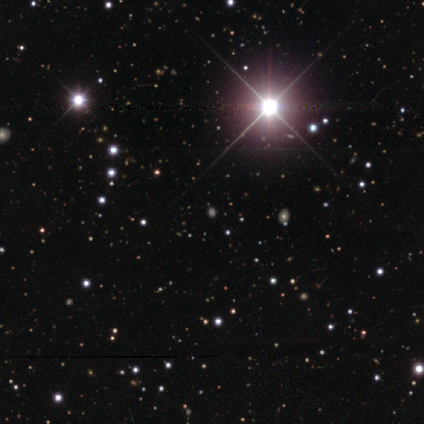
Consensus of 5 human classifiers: Smooth or featured? 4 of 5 (80%) said star or artifact.